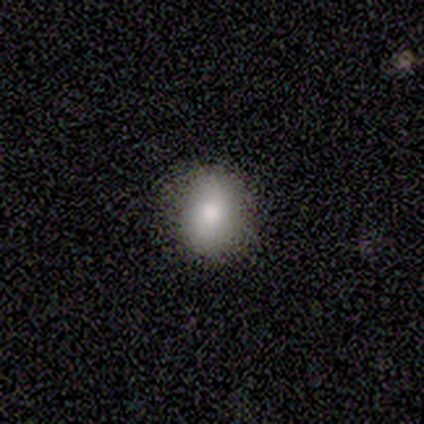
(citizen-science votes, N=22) A smooth galaxy with no disk features (77%) that is round (71%). Merging: none (100%).